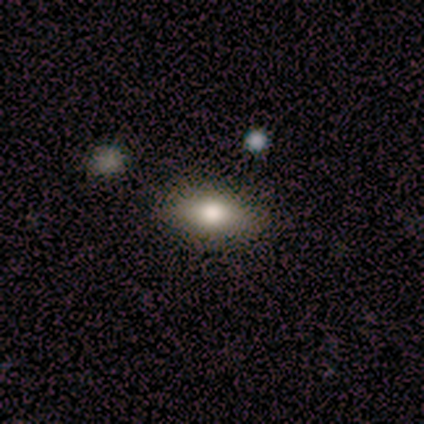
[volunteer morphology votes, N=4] smooth 100%, featured or disk 0%, star or artifact 0%. Down the decision tree: how rounded — in between (100%); merging — none (100%).